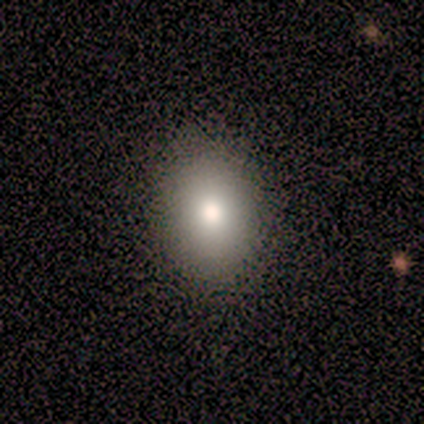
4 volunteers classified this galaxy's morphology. smooth_or_featured: smooth (p=1.00)
how_rounded: in between (p=1.00)
merging: none (p=1.00)